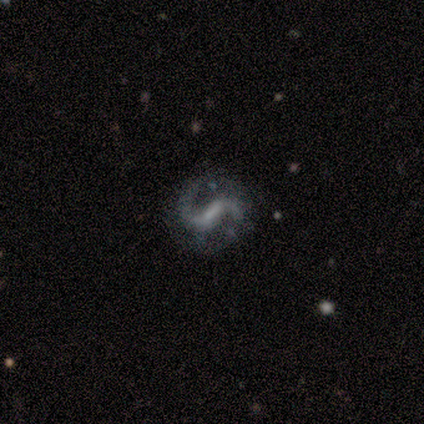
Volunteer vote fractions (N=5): A featured or disk galaxy (100%) with a strong bar (40%, tied with weak), 2 (100%) medium (40%, tied with loose) spiral arms (100%) and no central bulge (60%). Merging: none (80%).